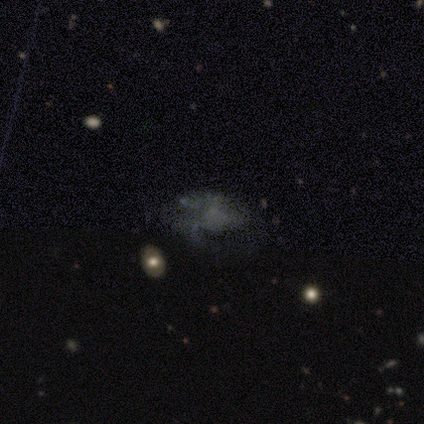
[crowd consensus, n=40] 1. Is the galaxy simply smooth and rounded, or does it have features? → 62% featured or disk, 25% smooth, 12% star or artifact.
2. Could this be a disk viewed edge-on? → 100% no, 0% yes.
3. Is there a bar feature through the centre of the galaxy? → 96% no, 4% weak, 0% strong.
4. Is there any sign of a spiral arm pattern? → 52% no, 48% yes.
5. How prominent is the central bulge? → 80% none, 20% small, 0% dominant, 0% large, 0% moderate.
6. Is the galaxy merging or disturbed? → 49% major disturbance, 26% none, 26% minor disturbance, 0% merger.